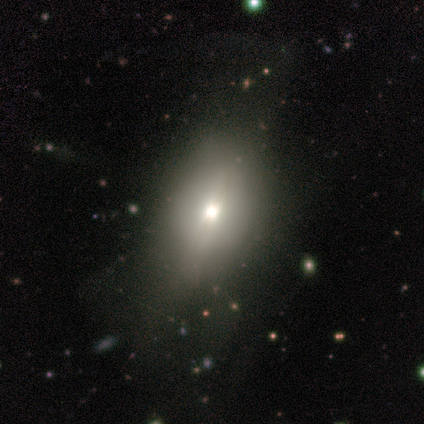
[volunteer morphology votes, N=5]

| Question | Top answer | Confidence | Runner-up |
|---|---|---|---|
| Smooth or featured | smooth | 60% | featured or disk (20%) |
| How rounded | in between | 100% | — |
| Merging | none | 50% | minor disturbance (25%) |